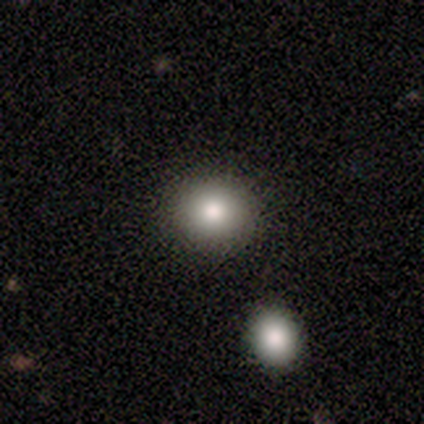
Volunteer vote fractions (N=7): smooth_or_featured: smooth (p=0.57) [alt: star or artifact p=0.29]
how_rounded: round (p=1.00)
merging: none (p=0.60) [alt: minor disturbance p=0.40]